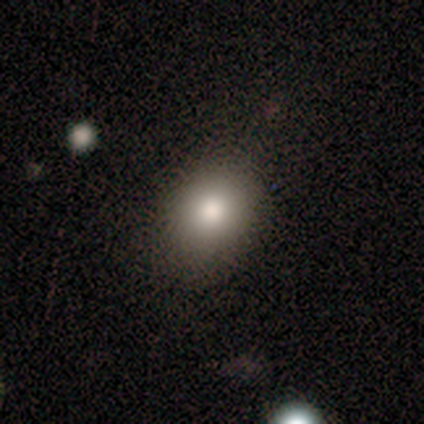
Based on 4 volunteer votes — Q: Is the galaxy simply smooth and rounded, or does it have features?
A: smooth — 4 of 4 (100%).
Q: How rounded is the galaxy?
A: round — 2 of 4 (50%, tied with in between).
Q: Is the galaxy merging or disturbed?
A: none — 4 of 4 (100%).